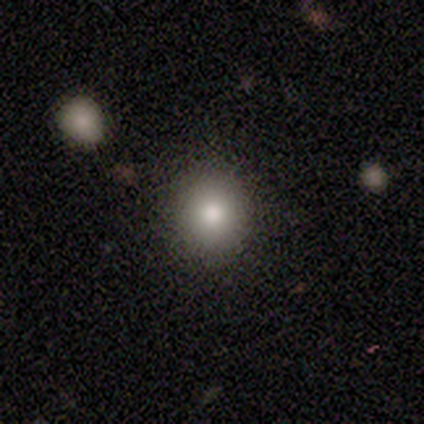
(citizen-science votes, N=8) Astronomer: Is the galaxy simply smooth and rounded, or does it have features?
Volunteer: smooth — 88%.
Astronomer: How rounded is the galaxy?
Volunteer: round — 100%.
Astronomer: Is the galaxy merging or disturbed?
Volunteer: none — 88%.